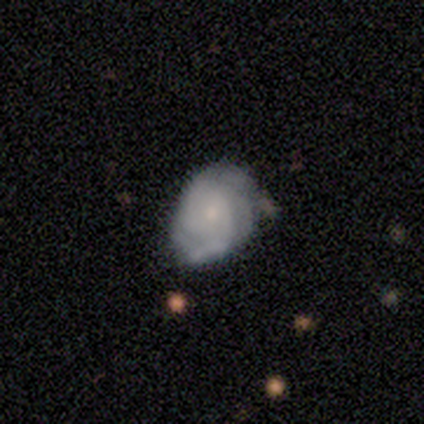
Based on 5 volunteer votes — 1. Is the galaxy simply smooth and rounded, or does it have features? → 80% featured or disk, 20% smooth, 0% star or artifact.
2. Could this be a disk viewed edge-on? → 75% no, 25% yes.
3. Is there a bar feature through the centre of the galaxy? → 67% no, 33% weak, 0% strong.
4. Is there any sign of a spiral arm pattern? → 100% yes, 0% no.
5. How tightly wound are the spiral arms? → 67% tight, 33% loose, 0% medium.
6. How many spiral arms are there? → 33% 1 (tied), 33% 2 (tied), 33% can't tell (tied), 0% 3, 0% 4, 0% more than 4.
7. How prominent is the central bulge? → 67% small, 33% moderate, 0% dominant, 0% large, 0% none.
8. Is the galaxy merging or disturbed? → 80% minor disturbance, 20% none, 0% major disturbance, 0% merger.